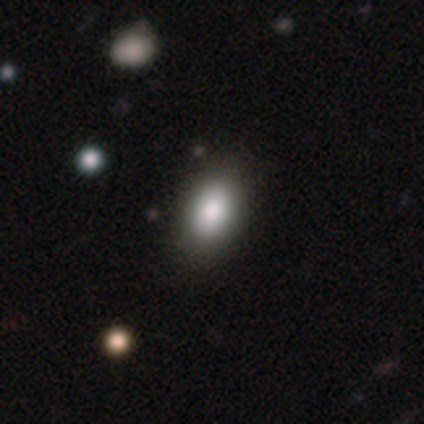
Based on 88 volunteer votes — smooth_or_featured: smooth (p=0.86) [alt: featured or disk p=0.07]
how_rounded: in between (p=0.92) [alt: round p=0.05]
merging: none (p=0.82) [alt: minor disturbance p=0.15]